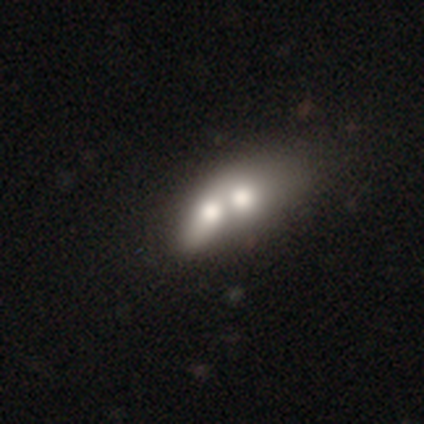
smooth 40% (tied), featured or disk 40% (tied), star or artifact 20%. Down the decision tree: how rounded — in between (100%); merging — merger (75%).